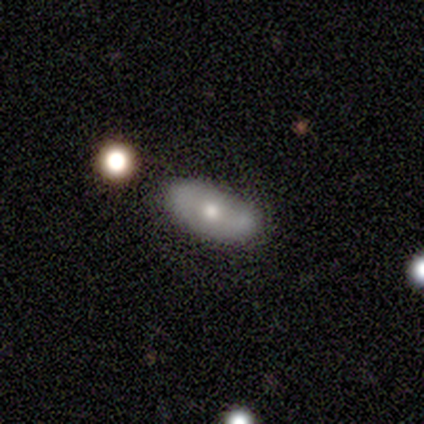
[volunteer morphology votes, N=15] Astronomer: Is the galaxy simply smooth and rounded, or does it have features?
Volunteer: featured or disk — 60%.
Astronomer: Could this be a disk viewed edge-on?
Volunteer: no — 89%.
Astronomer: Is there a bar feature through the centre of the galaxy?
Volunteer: no — 62%.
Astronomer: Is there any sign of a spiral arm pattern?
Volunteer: yes — 50%, tied with no at 50%.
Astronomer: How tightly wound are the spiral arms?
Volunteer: tight — 50%.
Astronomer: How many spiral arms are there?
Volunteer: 2 — 100%.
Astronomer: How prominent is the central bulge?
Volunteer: moderate — 62%.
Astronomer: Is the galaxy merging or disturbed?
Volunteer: none — 71%.